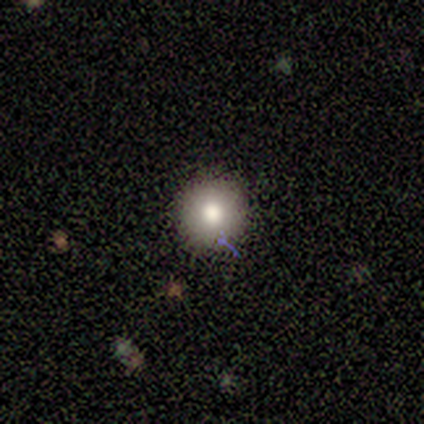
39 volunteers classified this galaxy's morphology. Smooth or featured? smooth (77%)
How rounded? round (97%)
Merging? none (94%)